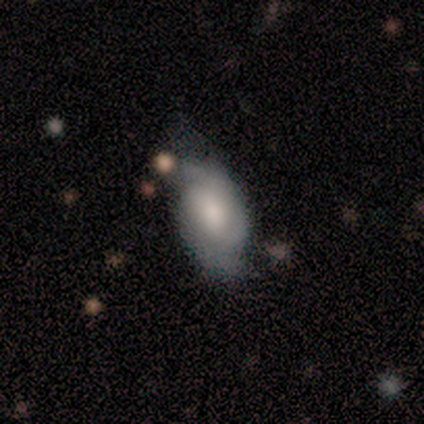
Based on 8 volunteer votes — Overall: smooth (50%, tied with featured or disk). How rounded: in between (75%). Merging: none (50%; major disturbance 38%).